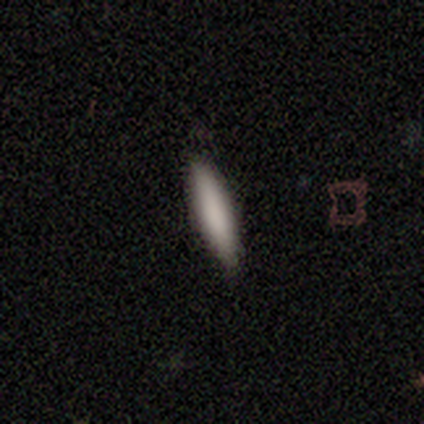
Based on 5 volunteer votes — A smooth galaxy with no disk features (100%) that is cigar-shaped (60%).

Vote fractions:
- Smooth or featured? smooth: 100% / featured or disk: 0% / star or artifact: 0%
- How rounded? cigar-shaped: 60% / in between: 40% / round: 0%
- Merging? none: 80% / minor disturbance: 20% / major disturbance: 0% / merger: 0%